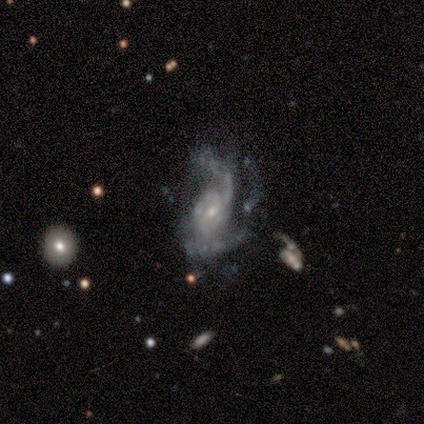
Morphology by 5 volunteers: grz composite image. It shows a featured or disk galaxy (80%) with a weak bar (75%), 2 (75%) loose (75%) spiral arms (100%) and a small central bulge (100%). Merging: none (40%, tied with major disturbance).